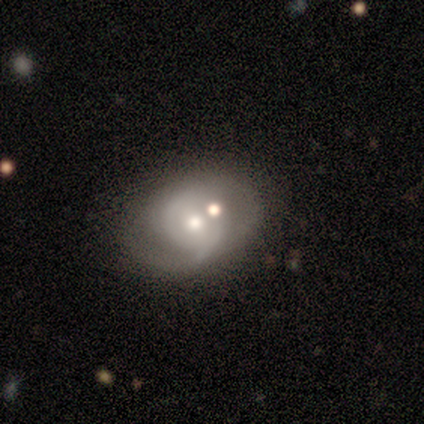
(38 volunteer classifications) smooth-or-featured: featured or disk: 74% | smooth: 21% | star or artifact: 5%
  disk-edge-on: no: 93% | yes: 7%
    bar: no: 62% | weak: 31% | strong: 8%
    has-spiral-arms: yes: 73% | no: 27%
      spiral-winding: medium: 58% | loose: 26% | tight: 16%
      spiral-arm-count: 2: 53% | 1: 26% | can't tell: 21% | 3: 0% | 4: 0% | more than 4: 0%
    bulge-size: moderate: 77% | small: 23% | dominant: 0% | large: 0% | none: 0%
  merging: merger: 44% | none: 42% | major disturbance: 11% | minor disturbance: 3%